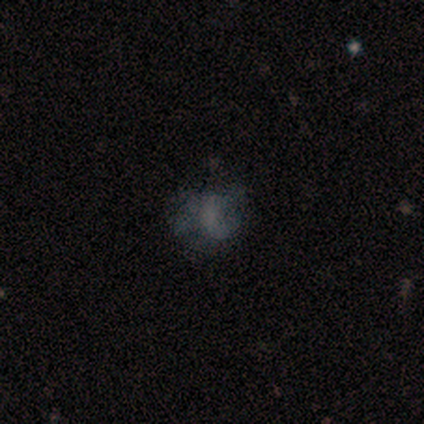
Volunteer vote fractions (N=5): smooth_or_featured: smooth (p=0.40) [tied with: featured or disk p=0.40]
how_rounded: round (p=0.50) [tied with: in between p=0.50]
merging: none (p=0.50) [alt: minor disturbance p=0.25]